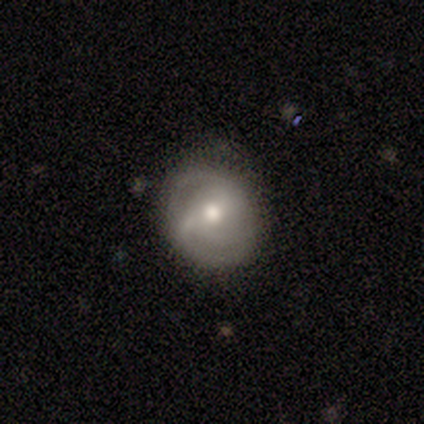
featured or disk 66%, smooth 26%, star or artifact 8%. Down the decision tree: edge-on disk — no (96%); bar — no (42%); spiral arms — yes (88%); spiral arm count — 2 (48%); spiral winding — tight (38%, tied with medium); bulge size — moderate (71%); merging — none (77%).